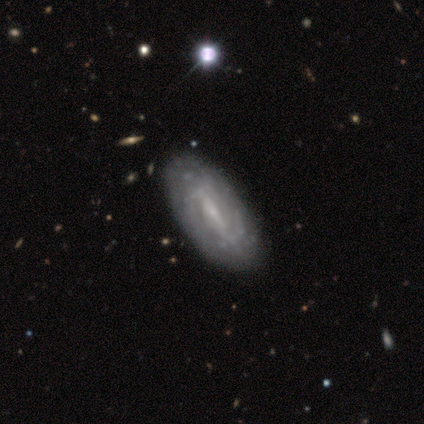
Smooth or featured? 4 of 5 (80%) said featured or disk. Edge-on disk? 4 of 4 (100%) said no. Bar? 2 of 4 (50%) said weak. Spiral arms? 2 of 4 (50%, tied with no) said yes. Spiral winding? 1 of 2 (50%, tied with medium) said tight. Spiral arm count? 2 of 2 (100%) said can't tell. Bulge size? 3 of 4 (75%) said small. Merging? 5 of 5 (100%) said none.